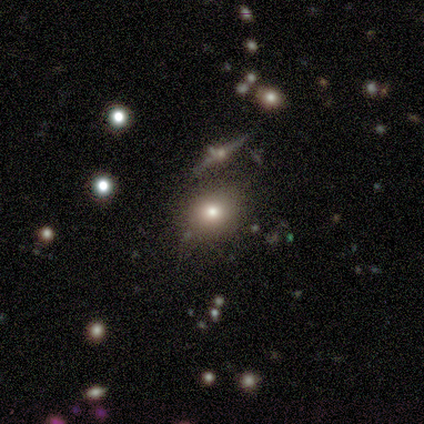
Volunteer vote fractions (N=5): Smooth or featured? smooth (40%, tied with star or artifact)
How rounded? round (100%)
Merging? none (67%)